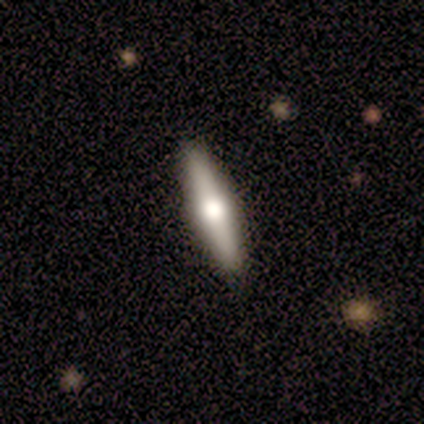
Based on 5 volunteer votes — featured or disk 60%, smooth 40%, star or artifact 0%. Down the decision tree: edge-on disk — yes (100%); edge-on bulge — rounded (100%); merging — none (100%).